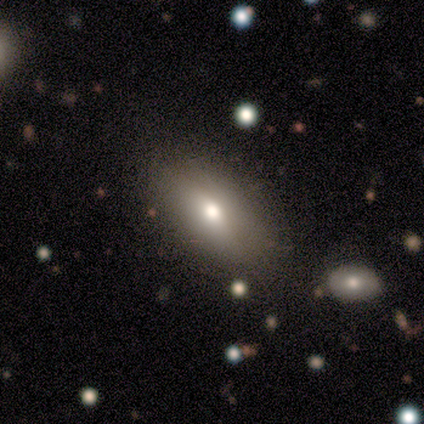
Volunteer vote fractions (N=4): Smooth or featured: smooth — 75% (star or artifact — 25%)
How rounded: in between — 67% (round — 33%)
Merging: none — 100%